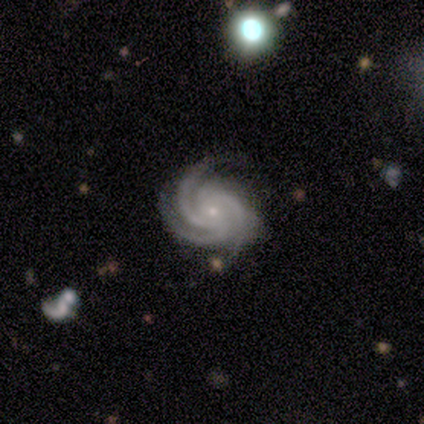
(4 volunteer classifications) Overall: featured or disk (75%). Edge-on disk: no (100%). Bar: no (100%). Spiral arms: yes (100%). Spiral arm count: 3 (67%; 4 33%). Spiral winding: tight (67%; medium 33%). Bulge size: small (100%). Merging: none (100%).